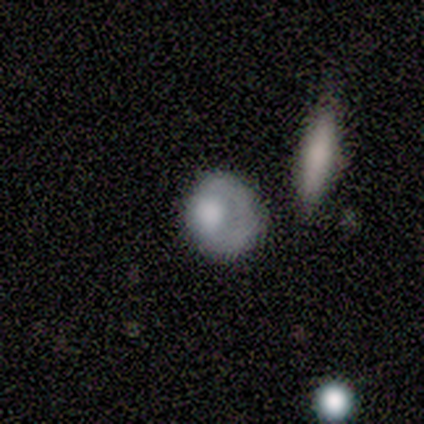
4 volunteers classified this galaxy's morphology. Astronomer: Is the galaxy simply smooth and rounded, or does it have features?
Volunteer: smooth — 75%.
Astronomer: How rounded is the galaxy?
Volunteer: in between — 67%.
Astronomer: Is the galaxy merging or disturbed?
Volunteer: none — 50%, tied with minor disturbance at 50%.